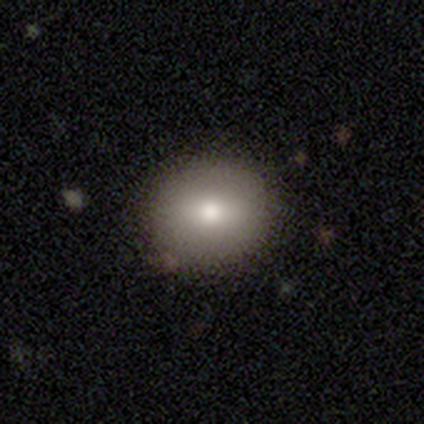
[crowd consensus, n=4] Smooth or featured: smooth — 50% (tied with featured or disk — 50%)
How rounded: round — 100%
Merging: none — 100%